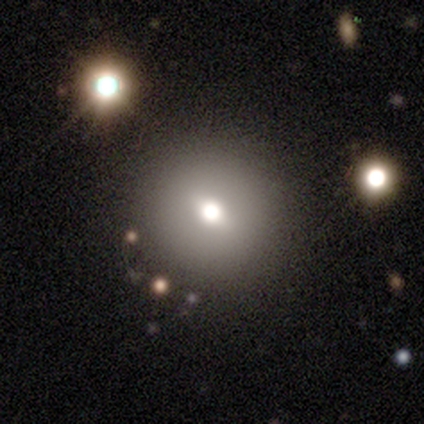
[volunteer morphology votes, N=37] type=smooth (57%); roundness=round (100%); merging=none (85%).